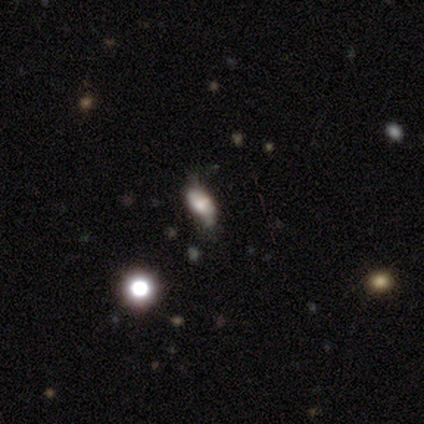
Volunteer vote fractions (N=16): Smooth or featured? 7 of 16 (44%) said smooth. How rounded? 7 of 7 (100%) said in between. Merging? 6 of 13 (46%) said none.